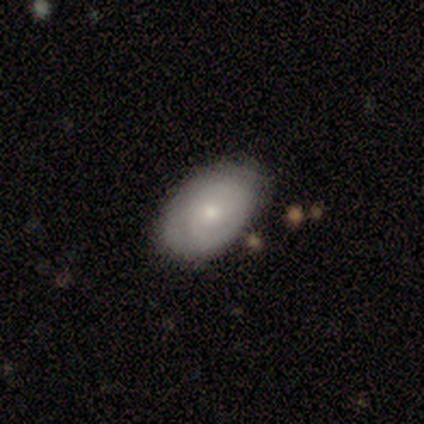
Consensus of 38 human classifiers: A smooth galaxy with no disk features (68%) that is in between round and cigar-shaped (92%).

Vote fractions:
- Smooth or featured? smooth: 68% / featured or disk: 29% / star or artifact: 3%
- How rounded? in between: 92% / round: 8% / cigar-shaped: 0%
- Merging? none: 70% / minor disturbance: 27% / major disturbance: 3% / merger: 0%